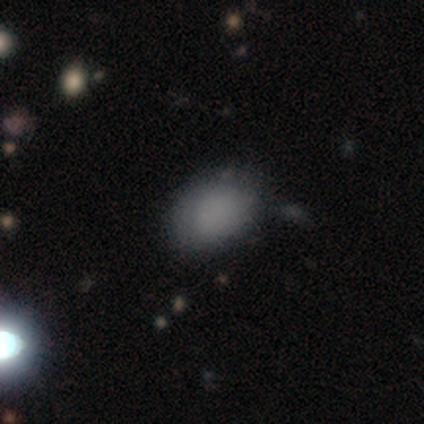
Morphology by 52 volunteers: This is clearly a smooth galaxy (88%). How rounded: clearly in between (89%). Merging: likely none (64%).